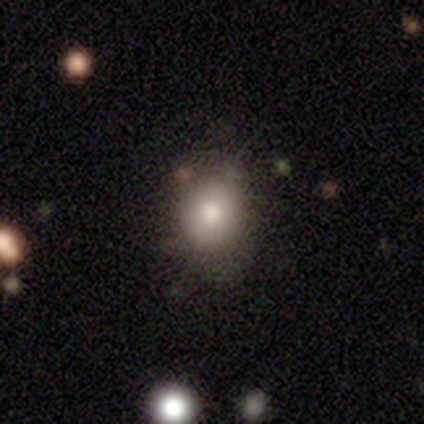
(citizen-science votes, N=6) A smooth galaxy with no disk features (83%) that is round (60%). Merging: none (50%).